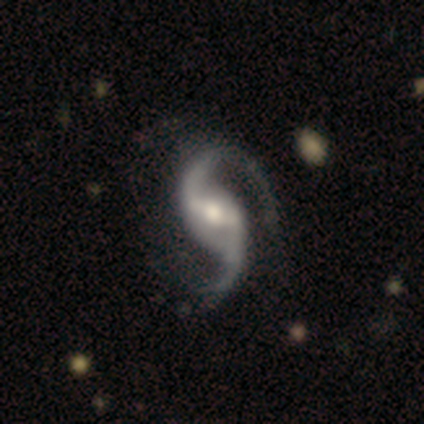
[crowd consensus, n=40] This is clearly a featured or disk galaxy (100%). It is clearly not viewed edge-on (100%). Bar: possibly strong (48%). Spiral arm pattern: clearly yes (100%). Spiral arm count: clearly 2 (95%). Spiral winding: likely loose (70%). Central bulge: likely moderate (70%). Merging: possibly none (45%).